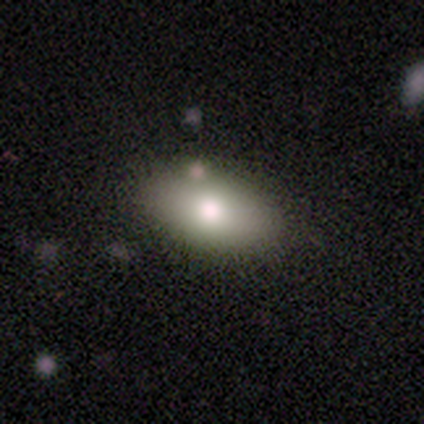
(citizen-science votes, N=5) Smooth or featured?
  - smooth: 60% *
  - star or artifact: 40%
  - featured or disk: 0%
How rounded?
  - in between: 100% *
  - round: 0%
  - cigar-shaped: 0%
Merging?
  - none: 67% *
  - minor disturbance: 33%
  - major disturbance: 0%
  - merger: 0%